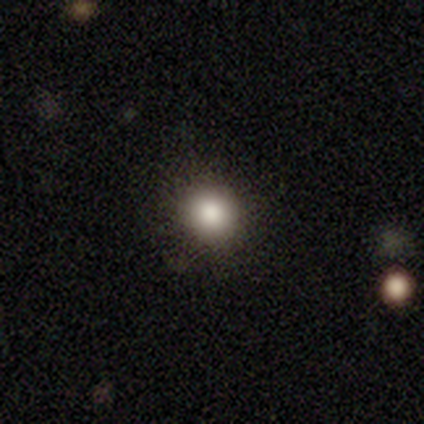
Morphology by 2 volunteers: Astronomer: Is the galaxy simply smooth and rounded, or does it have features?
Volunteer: smooth — 100%.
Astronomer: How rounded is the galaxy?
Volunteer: round — 100%.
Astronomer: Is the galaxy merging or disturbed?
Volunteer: none — 100%.